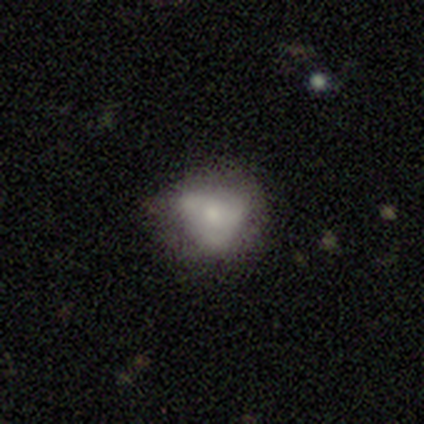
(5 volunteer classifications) Overall: featured or disk (60%; smooth 40%). Edge-on disk: no (100%). Bar: no (67%; strong 33%). Spiral arms: no (67%; yes 33%). Bulge size: small (100%). Merging: none (80%).